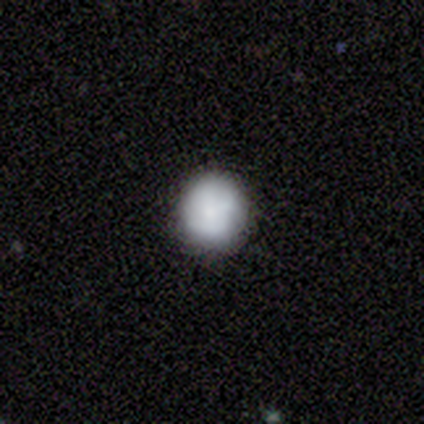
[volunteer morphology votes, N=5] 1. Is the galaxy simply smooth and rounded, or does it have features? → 80% smooth, 20% featured or disk, 0% star or artifact.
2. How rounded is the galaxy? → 100% round, 0% in between, 0% cigar-shaped.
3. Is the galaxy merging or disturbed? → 100% none, 0% minor disturbance, 0% major disturbance, 0% merger.